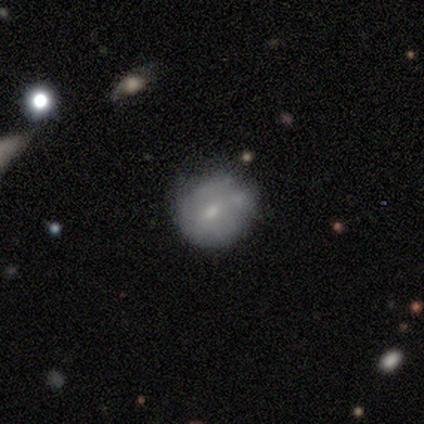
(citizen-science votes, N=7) smooth_or_featured: smooth (p=0.57) [alt: featured or disk p=0.29]
how_rounded: round (p=1.00)
merging: none (p=0.67) [alt: minor disturbance p=0.33]